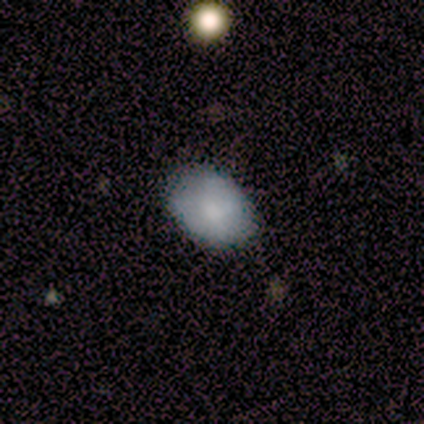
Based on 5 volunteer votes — Smooth or featured?
  - smooth: 100% *
  - featured or disk: 0%
  - star or artifact: 0%
How rounded?
  - in between: 80% *
  - round: 20%
  - cigar-shaped: 0%
Merging?
  - none: 100% *
  - minor disturbance: 0%
  - major disturbance: 0%
  - merger: 0%